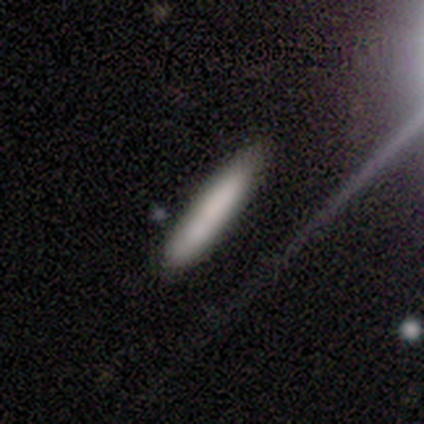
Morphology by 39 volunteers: A smooth galaxy with no disk features (77%) that is cigar-shaped (93%).

Vote fractions:
- Smooth or featured? smooth: 77% / featured or disk: 15% / star or artifact: 8%
- How rounded? cigar-shaped: 93% / in between: 7% / round: 0%
- Merging? none: 83% / minor disturbance: 14% / merger: 3% / major disturbance: 0%